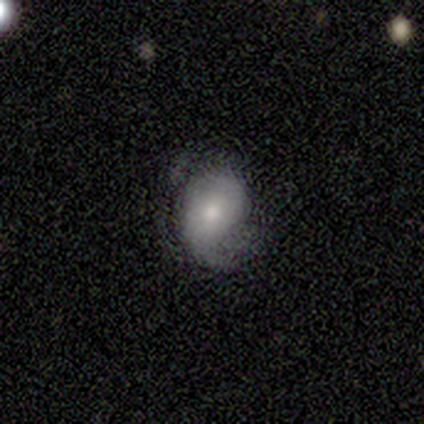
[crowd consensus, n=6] Morphology: type=smooth (67%); roundness=round (75%); merging=none (50%).